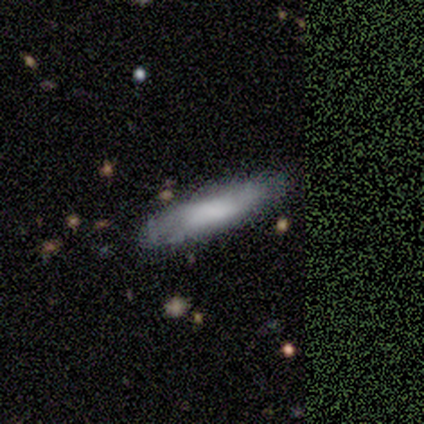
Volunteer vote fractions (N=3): This appears to be a smooth galaxy with no disk features (100%) that is cigar-shaped (100%). Merging: none (67%).